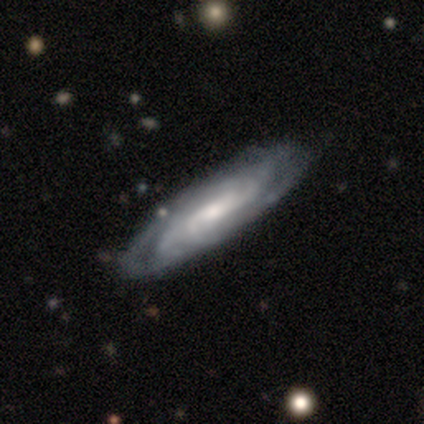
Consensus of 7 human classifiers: Q: Smooth or featured?
A: featured or disk (71%); runner-up: smooth (14%)
Q: Edge-on disk?
A: no (80%); runner-up: yes (20%)
Q: Bar?
A: weak (50%); runner-up: strong (25%)
Q: Spiral arms?
A: yes (100%)
Q: Spiral winding?
A: tight (50%); runner-up: medium (25%)
Q: Spiral arm count?
A: 2 (25%); tied with: 3 (25%); 4 (25%); can't tell (25%)
Q: Bulge size?
A: moderate (50%); runner-up: dominant (25%)
Q: Merging?
A: none (100%)